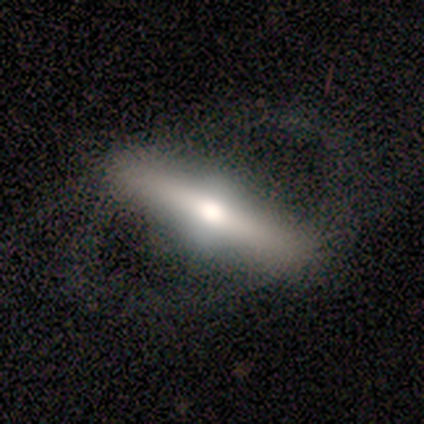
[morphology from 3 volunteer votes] smooth-or-featured: featured or disk: 100% | smooth: 0% | star or artifact: 0%
  disk-edge-on: yes: 67% | no: 33%
    edge-on-bulge: rounded: 100% | boxy: 0% | none: 0%
  merging: none: 67% | minor disturbance: 33% | major disturbance: 0% | merger: 0%